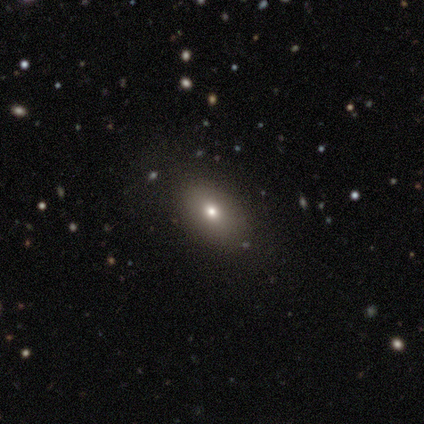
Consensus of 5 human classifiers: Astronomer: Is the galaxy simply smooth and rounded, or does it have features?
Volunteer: smooth — 100%.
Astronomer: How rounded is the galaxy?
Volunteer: in between — 100%.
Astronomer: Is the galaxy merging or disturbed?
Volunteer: none — 100%.